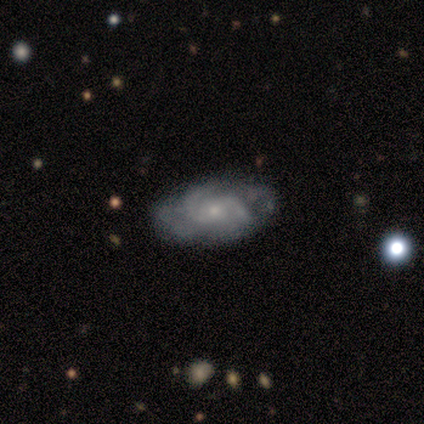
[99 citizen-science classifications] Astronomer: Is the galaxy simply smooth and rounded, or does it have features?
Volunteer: featured or disk — 86%.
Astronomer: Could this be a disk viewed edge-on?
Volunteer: no — 94%.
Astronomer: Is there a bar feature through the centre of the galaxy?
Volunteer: no — 69%.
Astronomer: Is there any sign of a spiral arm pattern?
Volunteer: yes — 92%.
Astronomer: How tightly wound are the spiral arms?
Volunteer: medium — 47% (runner-up: tight, 36%).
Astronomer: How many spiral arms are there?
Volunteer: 2 — 47% (runner-up: can't tell, 30%).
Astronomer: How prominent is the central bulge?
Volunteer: small — 62%.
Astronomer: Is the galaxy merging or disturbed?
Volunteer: none — 63%.